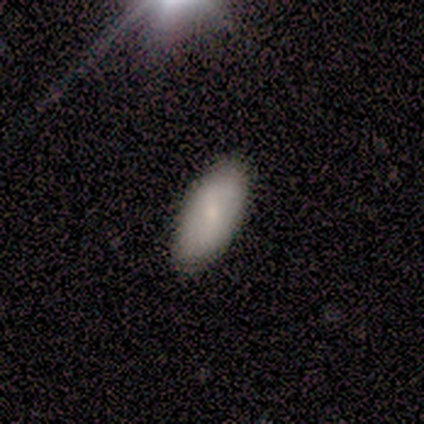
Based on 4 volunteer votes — smooth-or-featured: smooth: 75% | featured or disk: 25% | star or artifact: 0%
  how-rounded: in between: 100% | round: 0% | cigar-shaped: 0%
  merging: none: 100% | minor disturbance: 0% | major disturbance: 0% | merger: 0%